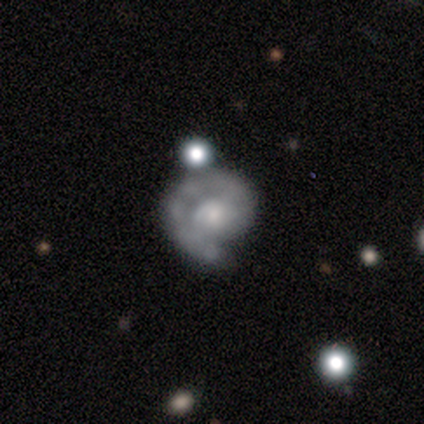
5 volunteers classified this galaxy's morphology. Q: Smooth or featured?
A: featured or disk (100%)
Q: Edge-on disk?
A: no (100%)
Q: Bar?
A: no (100%)
Q: Spiral arms?
A: yes (100%)
Q: Spiral winding?
A: tight (60%); runner-up: medium (40%)
Q: Spiral arm count?
A: 1 (100%)
Q: Bulge size?
A: small (60%); runner-up: moderate (40%)
Q: Merging?
A: none (80%); runner-up: major disturbance (20%)